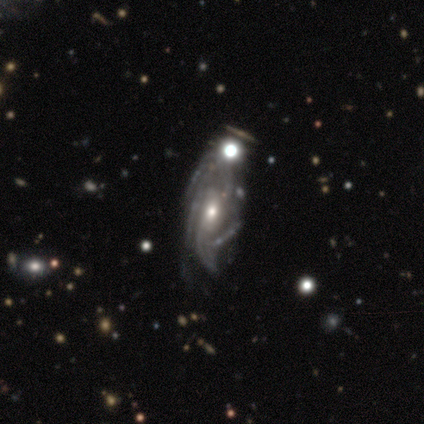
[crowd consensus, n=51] Morphology: type=featured or disk (84%); edge-on=no (95%); bar=no (71%); spiral arms=yes (85%); winding=medium (51%); arm count=can't tell (31%); bulge=moderate (68%); merging=none (30%).